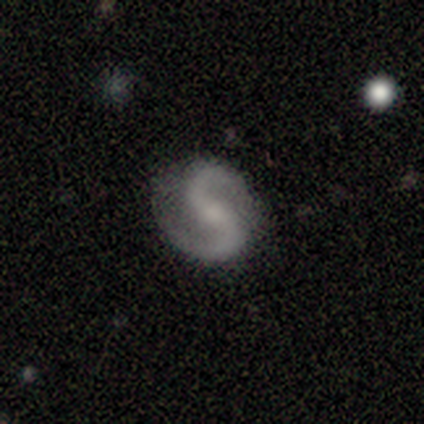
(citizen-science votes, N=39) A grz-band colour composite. It shows a featured or disk galaxy (95%) with a weak bar (43%), 2 (94%) medium (44%, tied with loose) spiral arms (97%) and a small central bulge (43%). Merging: none (87%).